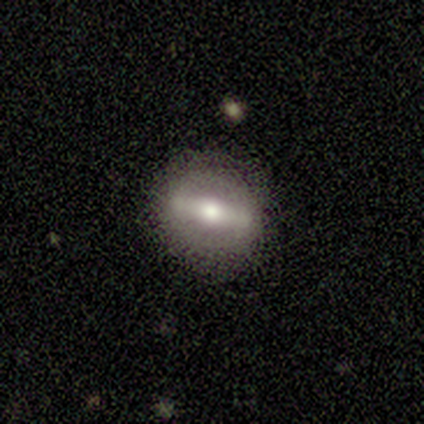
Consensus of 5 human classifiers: Volunteers were most divided on "bar": strong: 75%, weak: 25%, no: 0%. More confident: edge-on disk — no (100%); bulge size — moderate (100%); merging — none (100%); smooth or featured — featured or disk (80%); spiral arms — no (75%).